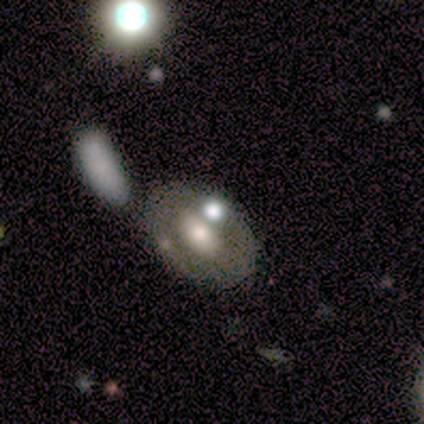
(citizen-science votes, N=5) Smooth or featured?
  - smooth: 40% * (tied)
  - star or artifact: 40% * (tied)
  - featured or disk: 20%
How rounded?
  - in between: 100% *
  - round: 0%
  - cigar-shaped: 0%
Merging?
  - none: 100% *
  - minor disturbance: 0%
  - major disturbance: 0%
  - merger: 0%